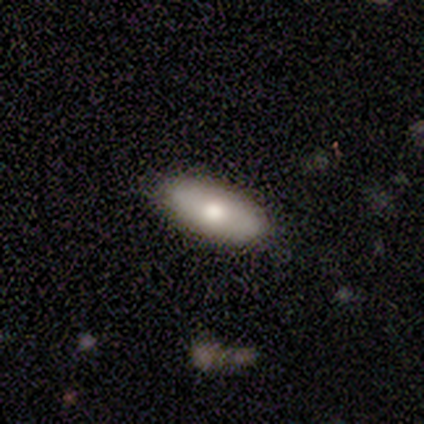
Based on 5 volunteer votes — Overall: smooth (60%; featured or disk 40%). How rounded: in between (100%). Merging: none (100%).